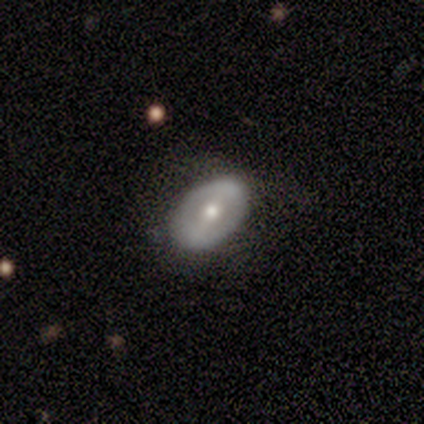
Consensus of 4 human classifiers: Smooth or featured? smooth (50%, tied with featured or disk)
How rounded? in between (100%)
Merging? none (50%)